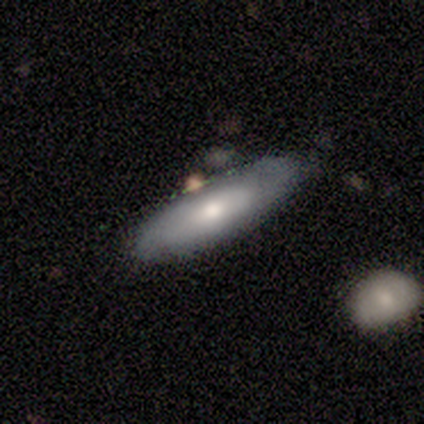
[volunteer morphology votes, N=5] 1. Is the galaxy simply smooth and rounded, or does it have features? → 100% smooth, 0% featured or disk, 0% star or artifact.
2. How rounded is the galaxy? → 60% cigar-shaped, 40% in between, 0% round.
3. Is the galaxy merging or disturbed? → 60% none, 40% major disturbance, 0% minor disturbance, 0% merger.